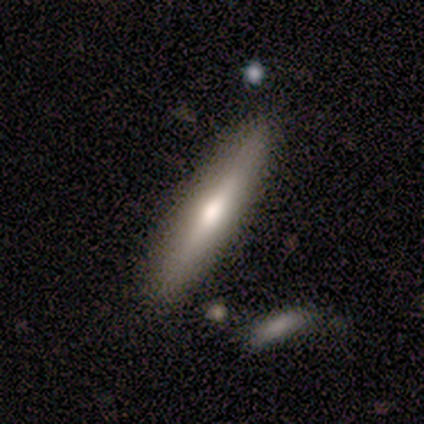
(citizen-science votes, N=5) Smooth or featured?
  - smooth: 60% *
  - featured or disk: 40%
  - star or artifact: 0%
How rounded?
  - cigar-shaped: 67% *
  - in between: 33%
  - round: 0%
Merging?
  - none: 100% *
  - minor disturbance: 0%
  - major disturbance: 0%
  - merger: 0%